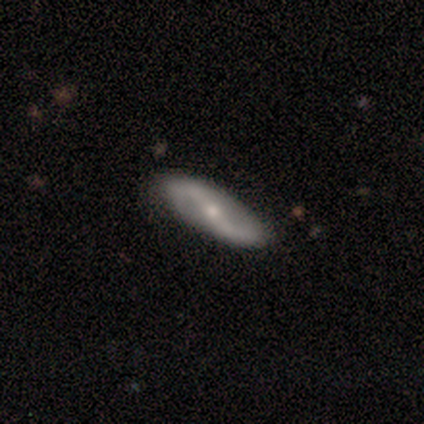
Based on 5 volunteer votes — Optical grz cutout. It shows a featured or disk galaxy (100%) with a strong bar (60%), 2 (100%) loose (75%) spiral arms (80%) and a small central bulge (60%). Merging: none (80%).